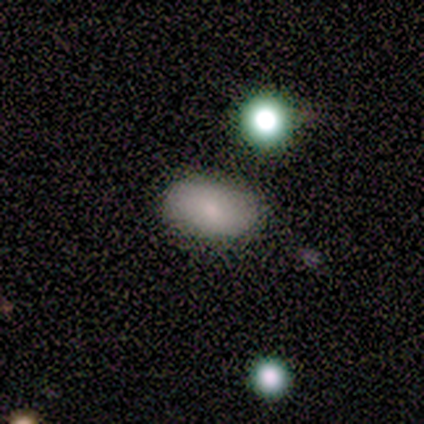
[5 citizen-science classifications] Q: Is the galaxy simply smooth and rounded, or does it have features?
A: smooth — 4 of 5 (80%).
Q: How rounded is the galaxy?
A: in between — 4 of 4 (100%).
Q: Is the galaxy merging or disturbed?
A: none — 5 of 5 (100%).